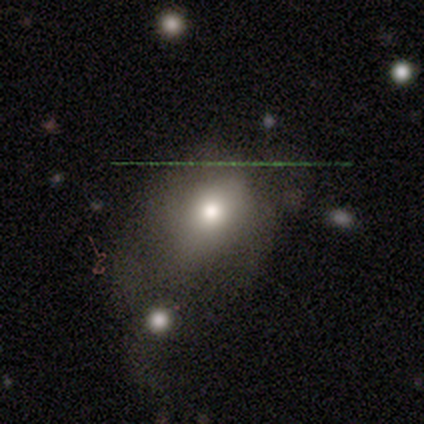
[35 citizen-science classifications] Morphology: type=smooth (66%); roundness=round (61%); merging=none (40%).